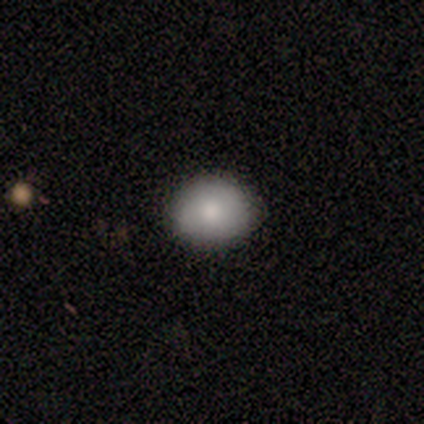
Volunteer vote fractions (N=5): A smooth galaxy with no disk features (60%) that is round (67%). Merging: none (100%).